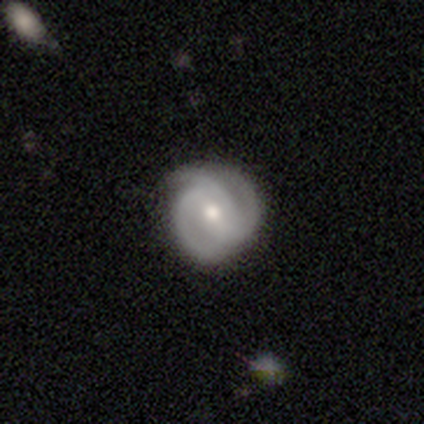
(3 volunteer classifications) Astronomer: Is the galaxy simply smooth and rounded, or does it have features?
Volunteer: featured or disk — 100%.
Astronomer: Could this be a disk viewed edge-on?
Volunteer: no — 100%.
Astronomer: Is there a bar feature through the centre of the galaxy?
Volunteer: weak — 67%.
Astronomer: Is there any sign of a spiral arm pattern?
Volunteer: yes — 100%.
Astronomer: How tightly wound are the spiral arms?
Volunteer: medium — 67%.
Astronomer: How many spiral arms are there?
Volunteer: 3 — 33%, tied with 4 and can't tell at 33%.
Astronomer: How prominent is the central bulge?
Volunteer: moderate — 67%.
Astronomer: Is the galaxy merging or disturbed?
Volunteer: none — 100%.